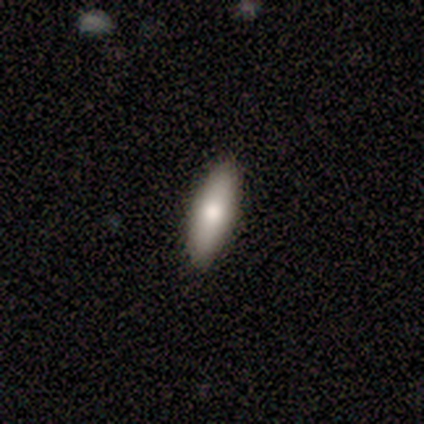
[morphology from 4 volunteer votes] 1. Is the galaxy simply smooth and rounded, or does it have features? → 50% smooth (tied), 50% featured or disk (tied), 0% star or artifact.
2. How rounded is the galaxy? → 100% in between, 0% round, 0% cigar-shaped.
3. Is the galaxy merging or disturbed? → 100% none, 0% minor disturbance, 0% major disturbance, 0% merger.